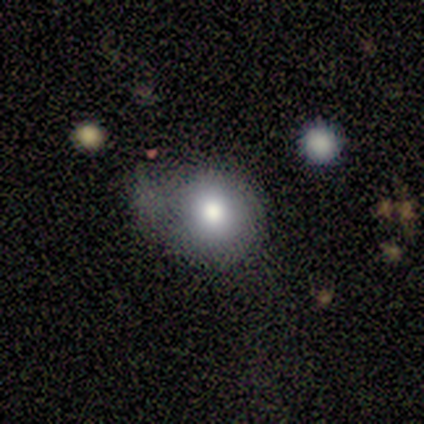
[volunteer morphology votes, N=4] This appears to be a smooth galaxy with no disk features (100%) that is round (100%). Merging: major disturbance (50%).